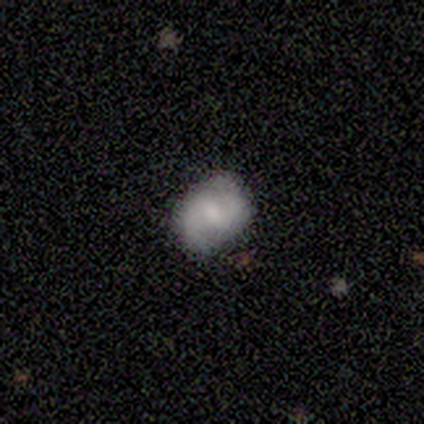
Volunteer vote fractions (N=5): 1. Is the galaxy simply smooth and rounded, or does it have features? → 80% featured or disk, 20% star or artifact, 0% smooth.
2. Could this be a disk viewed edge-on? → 100% no, 0% yes.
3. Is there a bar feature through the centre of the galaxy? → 100% weak, 0% strong, 0% no.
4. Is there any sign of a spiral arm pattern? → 100% yes, 0% no.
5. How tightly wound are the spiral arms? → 75% medium, 25% loose, 0% tight.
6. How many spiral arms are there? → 100% 2, 0% 1, 0% 3, 0% 4, 0% more than 4, 0% can't tell.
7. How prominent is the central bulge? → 75% small, 25% moderate, 0% dominant, 0% large, 0% none.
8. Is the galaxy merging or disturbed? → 100% none, 0% minor disturbance, 0% major disturbance, 0% merger.